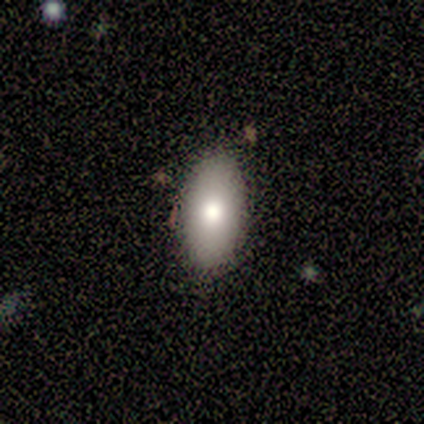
smooth-or-featured: smooth: 80% | featured or disk: 20% | star or artifact: 0%
  how-rounded: in between: 100% | round: 0% | cigar-shaped: 0%
  merging: none: 100% | minor disturbance: 0% | major disturbance: 0% | merger: 0%